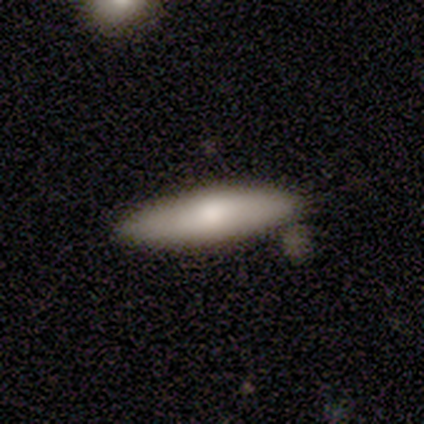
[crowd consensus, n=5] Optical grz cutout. It shows a featured or disk galaxy (60%) viewed edge-on (67%) with a rounded central bulge (100%). Merging: none (80%).